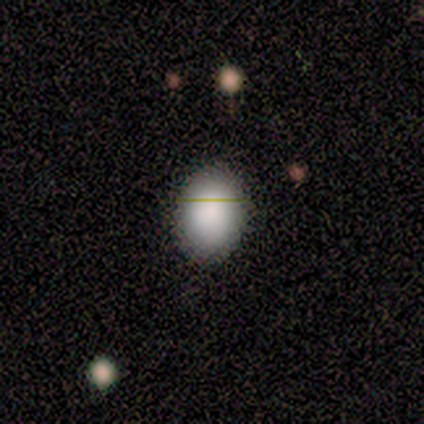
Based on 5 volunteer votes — Morphology: type=smooth (80%); roundness=in between (100%); merging=none (100%).